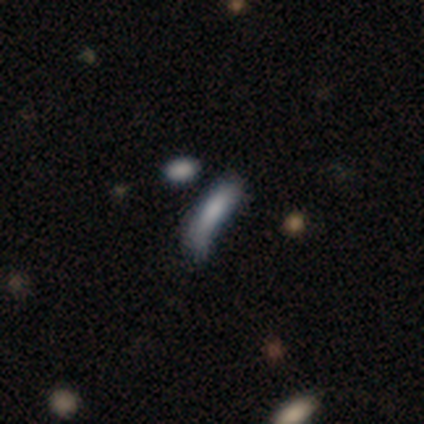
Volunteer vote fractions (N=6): This appears to be a smooth galaxy with no disk features (67%) that is in between round and cigar-shaped (75%). Merging: none (40%, tied with minor disturbance).